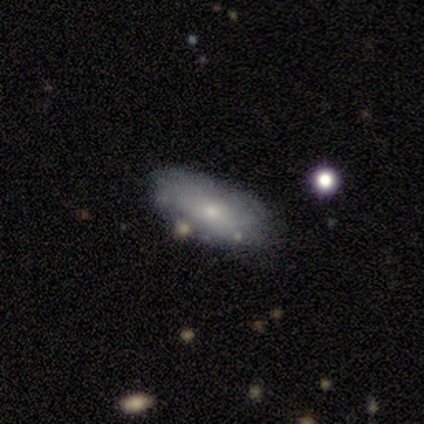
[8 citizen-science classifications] A smooth galaxy with no disk features (75%) that is in between round and cigar-shaped (67%).

Vote fractions:
- Smooth or featured? smooth: 75% / featured or disk: 25% / star or artifact: 0%
- How rounded? in between: 67% / cigar-shaped: 33% / round: 0%
- Merging? none: 75% / minor disturbance: 25% / major disturbance: 0% / merger: 0%